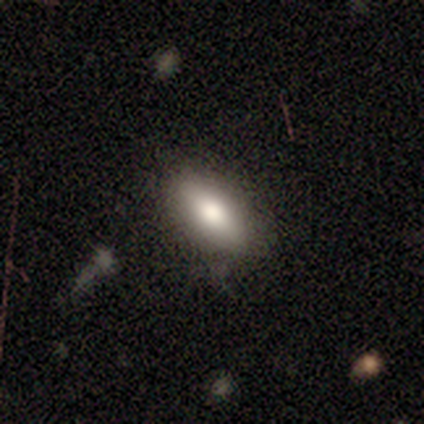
smooth-or-featured: smooth: 77% | featured or disk: 18% | star or artifact: 5%
  how-rounded: in between: 83% | cigar-shaped: 10% | round: 7%
  merging: none: 84% | minor disturbance: 11% | major disturbance: 3% | merger: 3%